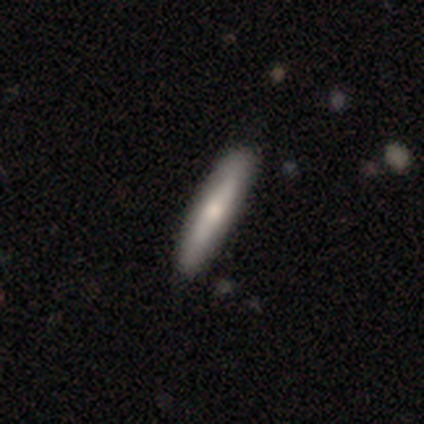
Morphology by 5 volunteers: Smooth or featured: smooth — 60% (featured or disk — 40%)
How rounded: cigar-shaped — 100%
Merging: none — 80% (minor disturbance — 20%)